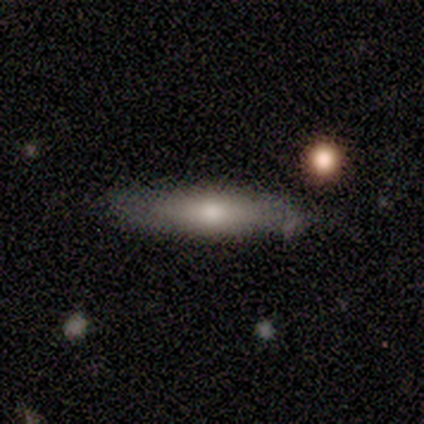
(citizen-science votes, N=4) A smooth galaxy with no disk features (50%, tied with featured or disk) that is cigar-shaped (100%).

Vote fractions:
- Smooth or featured? smooth: 50% (tied) / featured or disk: 50% (tied) / star or artifact: 0%
- How rounded? cigar-shaped: 100% / round: 0% / in between: 0%
- Merging? none: 100% / minor disturbance: 0% / major disturbance: 0% / merger: 0%